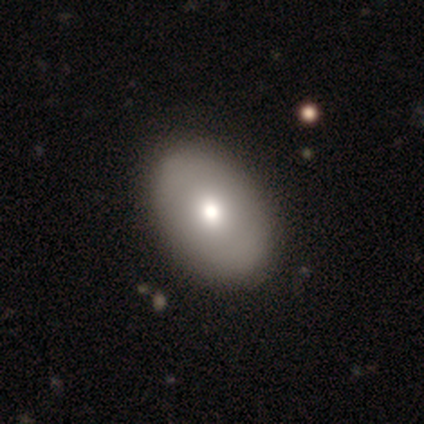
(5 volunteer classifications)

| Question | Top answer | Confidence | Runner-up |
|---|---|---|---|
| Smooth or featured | smooth | 80% | star or artifact (20%) |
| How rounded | in between | 75% | round (25%) |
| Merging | none | 75% | merger (25%) |